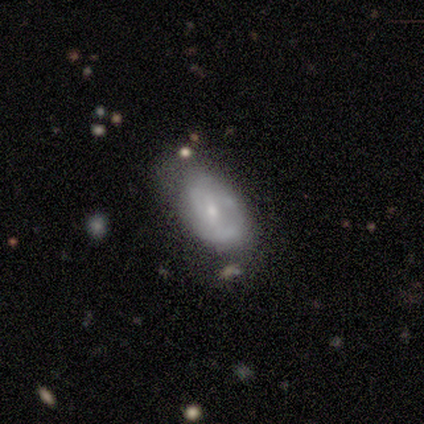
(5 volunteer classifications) smooth_or_featured: smooth (p=0.60) [alt: featured or disk p=0.40]
how_rounded: in between (p=1.00)
merging: none (p=1.00)